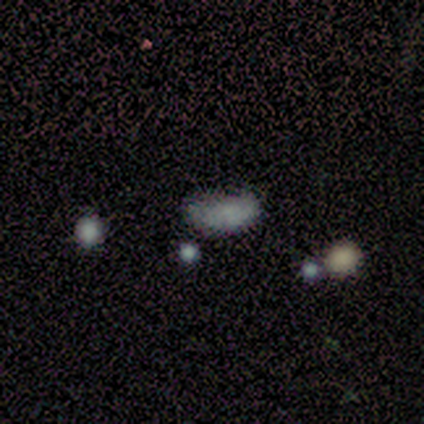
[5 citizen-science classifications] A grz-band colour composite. It shows a smooth galaxy with no disk features (80%) that is in between round and cigar-shaped (75%). Merging: minor disturbance (75%).